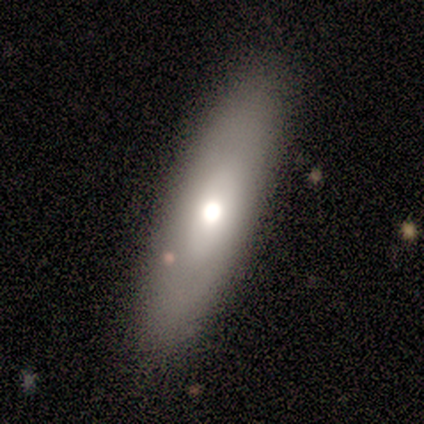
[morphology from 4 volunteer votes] smooth 75%, star or artifact 25%, featured or disk 0%. Down the decision tree: how rounded — in between (67%); merging — none (67%).